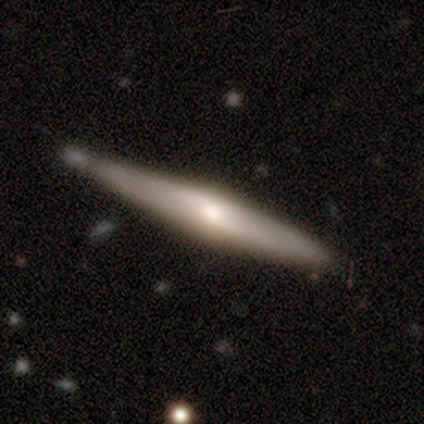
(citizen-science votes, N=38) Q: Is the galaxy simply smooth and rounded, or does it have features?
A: featured or disk — 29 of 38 (76%).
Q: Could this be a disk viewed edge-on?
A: yes — 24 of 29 (83%).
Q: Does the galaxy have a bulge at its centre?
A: rounded — 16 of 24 (67%).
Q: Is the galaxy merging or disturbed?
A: none — 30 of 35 (86%).